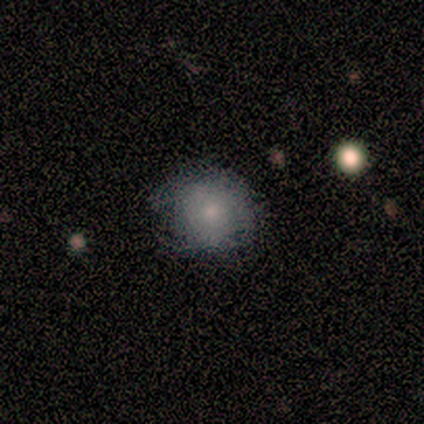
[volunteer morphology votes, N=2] This appears to be a smooth galaxy with no disk features (50%, tied with star or artifact) that is round (100%). Merging: none (100%).